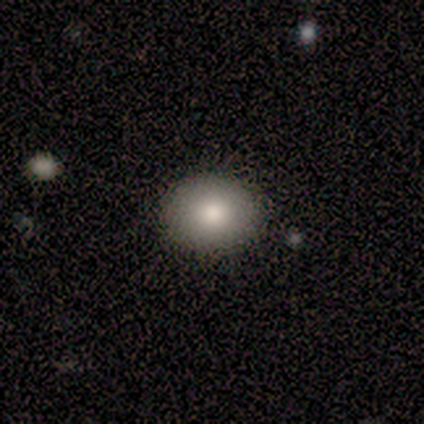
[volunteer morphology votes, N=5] type=smooth (80%); roundness=round (50%, tied with in between); merging=none (100%).